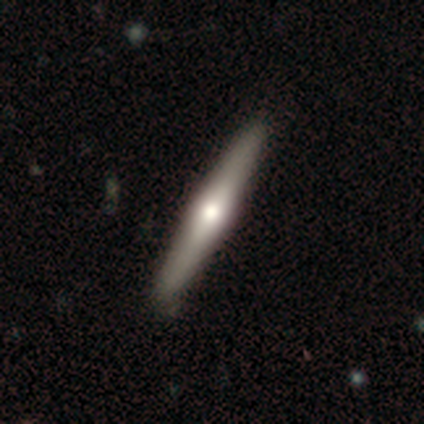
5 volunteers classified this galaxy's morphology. A smooth galaxy with no disk features (80%) that is cigar-shaped (100%).

Vote fractions:
- Smooth or featured? smooth: 80% / featured or disk: 20% / star or artifact: 0%
- How rounded? cigar-shaped: 100% / round: 0% / in between: 0%
- Merging? none: 100% / minor disturbance: 0% / major disturbance: 0% / merger: 0%